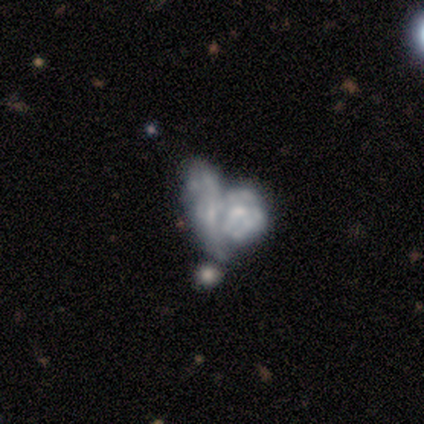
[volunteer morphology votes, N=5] smooth-or-featured: featured or disk: 80% | star or artifact: 20% | smooth: 0%
  disk-edge-on: no: 100% | yes: 0%
    bar: weak: 50% (tied) | no: 50% (tied) | strong: 0%
    has-spiral-arms: no: 75% | yes: 25%
    bulge-size: moderate: 50% | small: 25% | none: 25% | dominant: 0% | large: 0%
  merging: merger: 75% | major disturbance: 25% | none: 0% | minor disturbance: 0%